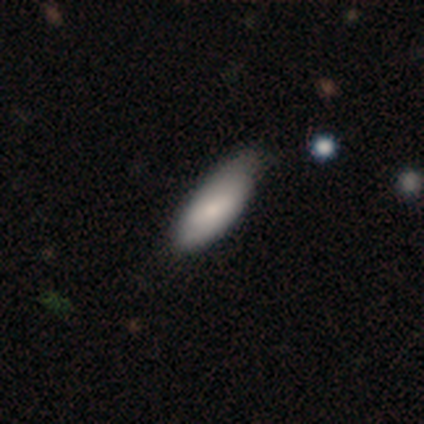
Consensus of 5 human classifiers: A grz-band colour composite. It shows a smooth galaxy with no disk features (60%) that is in between round and cigar-shaped (67%). Merging: none (50%, tied with minor disturbance).